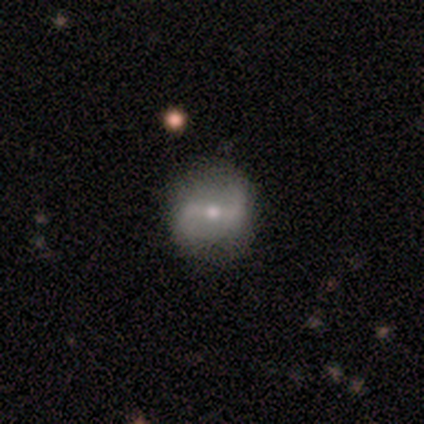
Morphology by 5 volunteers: Smooth or featured?
  - featured or disk: 100% *
  - smooth: 0%
  - star or artifact: 0%
Edge-on disk?
  - no: 100% *
  - yes: 0%
Bar?
  - strong: 60% *
  - weak: 20%
  - no: 20%
Spiral arms?
  - yes: 80% *
  - no: 20%
Spiral winding?
  - tight: 50% * (tied)
  - medium: 50% * (tied)
  - loose: 0%
Spiral arm count?
  - 2: 100% *
  - 1: 0%
  - 3: 0%
  - 4: 0%
  - more than 4: 0%
  - can't tell: 0%
Bulge size?
  - moderate: 60% *
  - small: 40%
  - dominant: 0%
  - large: 0%
  - none: 0%
Merging?
  - none: 80% *
  - minor disturbance: 20%
  - major disturbance: 0%
  - merger: 0%